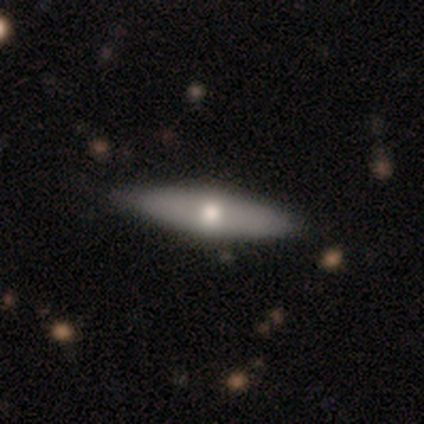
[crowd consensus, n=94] Overall: featured or disk (54%; smooth 44%). Edge-on disk: yes (78%). Edge-on bulge: rounded (92%). Merging: none (86%).